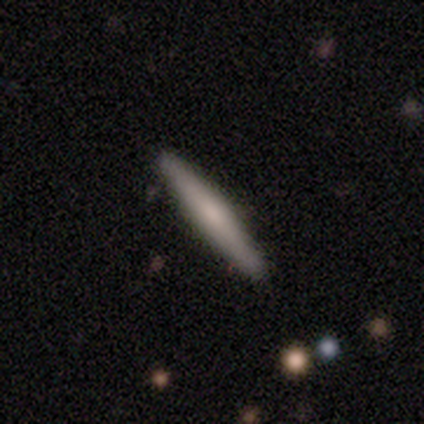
smooth-or-featured: smooth: 64% | featured or disk: 36% | star or artifact: 0%
  how-rounded: cigar-shaped: 100% | round: 0% | in between: 0%
  merging: none: 100% | minor disturbance: 0% | major disturbance: 0% | merger: 0%